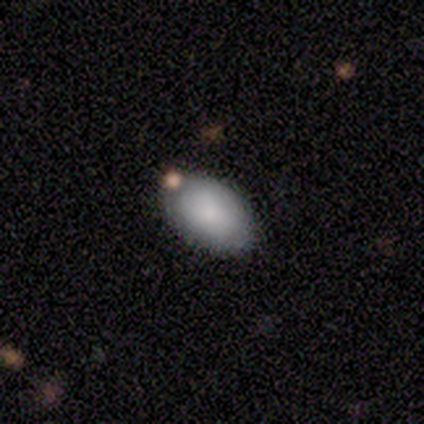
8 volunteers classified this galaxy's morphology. smooth-or-featured: smooth: 75% | featured or disk: 12% | star or artifact: 12%
  how-rounded: in between: 100% | round: 0% | cigar-shaped: 0%
  merging: none: 86% | merger: 14% | minor disturbance: 0% | major disturbance: 0%